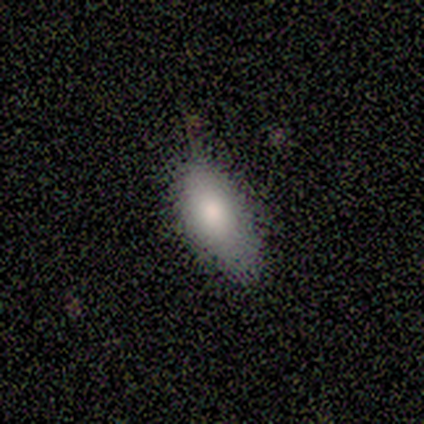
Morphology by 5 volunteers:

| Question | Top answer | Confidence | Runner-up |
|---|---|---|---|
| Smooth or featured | smooth | 100% | — |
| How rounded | in between | 100% | — |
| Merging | none | 60% | minor disturbance (40%) |